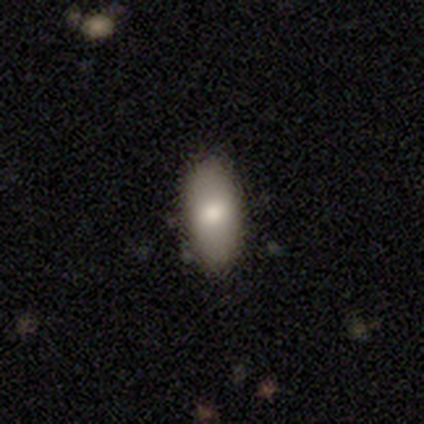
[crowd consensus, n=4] Consensus on every question: smooth or featured — smooth (100%); how rounded — in between (100%); merging — none (100%).